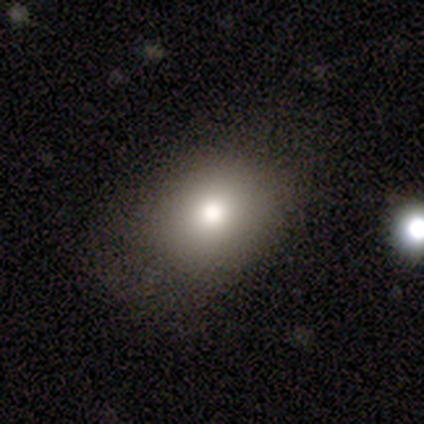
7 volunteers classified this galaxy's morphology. Smooth or featured?
  - smooth: 57% *
  - featured or disk: 29%
  - star or artifact: 14%
How rounded?
  - round: 75% *
  - in between: 25%
  - cigar-shaped: 0%
Merging?
  - none: 100% *
  - minor disturbance: 0%
  - major disturbance: 0%
  - merger: 0%